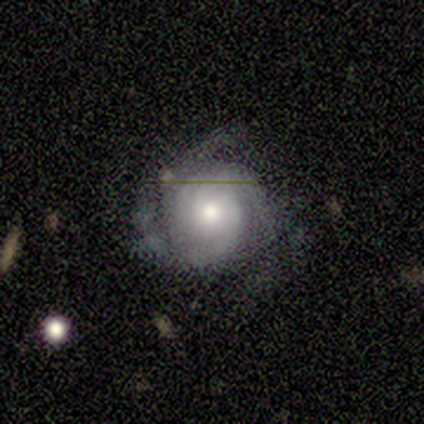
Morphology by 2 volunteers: Volunteers were most divided on "smooth or featured" (2-way tie): smooth: 50%, featured or disk: 50%, star or artifact: 0%; "merging" (2-way tie): none: 50%, major disturbance: 50%, minor disturbance: 0%, merger: 0%. More confident: how rounded — round (100%).